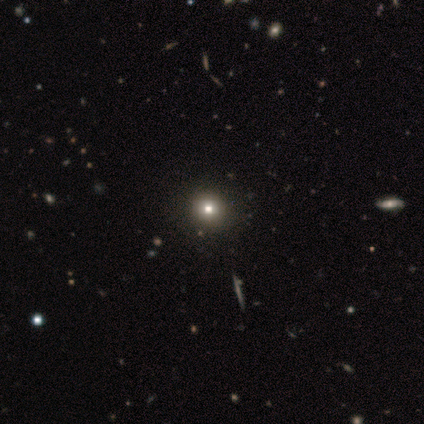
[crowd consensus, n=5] smooth 60%, featured or disk 20%, star or artifact 20%. Down the decision tree: how rounded — round (100%); merging — none (75%).